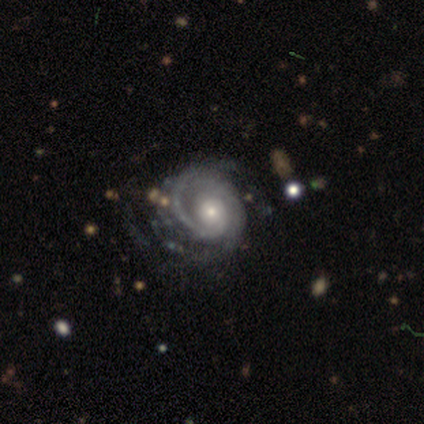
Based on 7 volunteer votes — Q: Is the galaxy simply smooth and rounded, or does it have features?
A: featured or disk — 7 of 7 (100%).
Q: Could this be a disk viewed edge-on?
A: no — 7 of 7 (100%).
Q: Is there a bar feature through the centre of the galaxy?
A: no — 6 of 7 (86%).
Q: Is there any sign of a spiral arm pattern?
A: yes — 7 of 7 (100%).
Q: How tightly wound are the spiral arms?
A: tight — 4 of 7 (57%).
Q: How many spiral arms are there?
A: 1 — 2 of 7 (29%, tied with 2 and can't tell).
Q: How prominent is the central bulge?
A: small — 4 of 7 (57%).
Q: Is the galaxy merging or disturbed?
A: none — 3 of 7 (43%, tied with major disturbance).